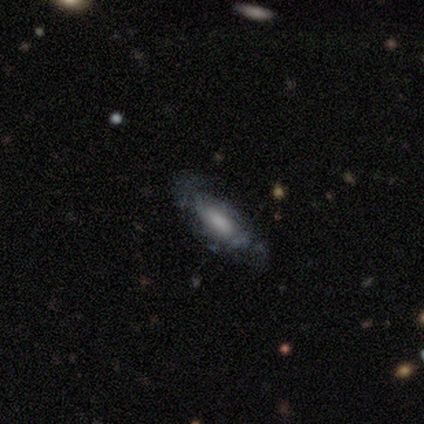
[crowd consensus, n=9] Smooth or featured: featured or disk — 56% (smooth — 44%)
Edge-on disk: no — 100%
Bar: weak — 60% (no — 40%)
Spiral arms: yes — 60% (no — 40%)
Spiral winding: tight — 67% (loose — 33%)
Spiral arm count: can't tell — 67% (2 — 33%)
Bulge size: large — 40% (tied with small — 40%)
Merging: none — 67% (minor disturbance — 33%)